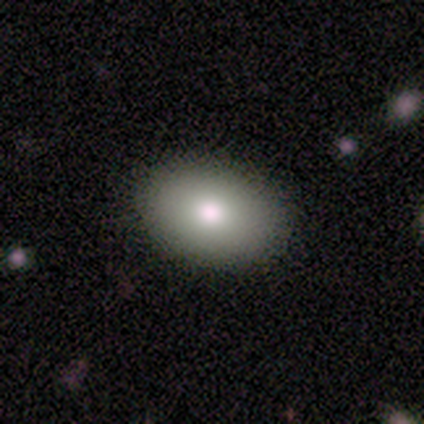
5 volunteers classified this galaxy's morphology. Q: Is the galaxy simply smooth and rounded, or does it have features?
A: smooth — 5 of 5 (100%).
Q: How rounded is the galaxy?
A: in between — 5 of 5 (100%).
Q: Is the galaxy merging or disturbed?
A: none — 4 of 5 (80%).